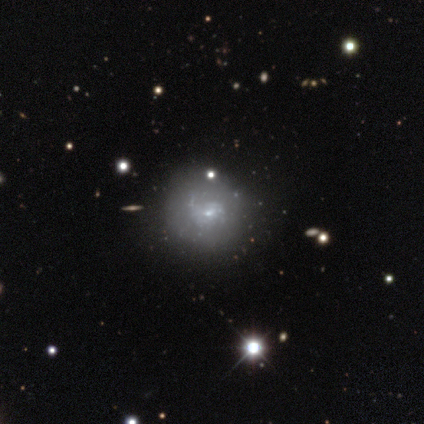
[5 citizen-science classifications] Smooth or featured? 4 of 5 (80%) said featured or disk. Edge-on disk? 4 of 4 (100%) said no. Bar? 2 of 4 (50%, tied with no) said weak. Spiral arms? 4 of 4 (100%) said yes. Spiral winding? 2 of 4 (50%, tied with loose) said tight. Spiral arm count? 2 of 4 (50%, tied with can't tell) said 2. Bulge size? 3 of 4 (75%) said small. Merging? 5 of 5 (100%) said none.